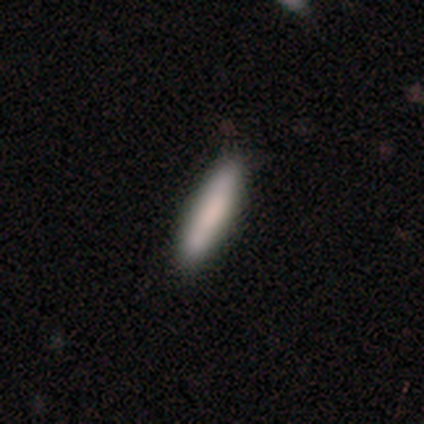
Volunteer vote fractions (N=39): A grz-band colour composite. It shows a smooth galaxy with no disk features (82%) that is cigar-shaped (88%). Merging: none (86%).